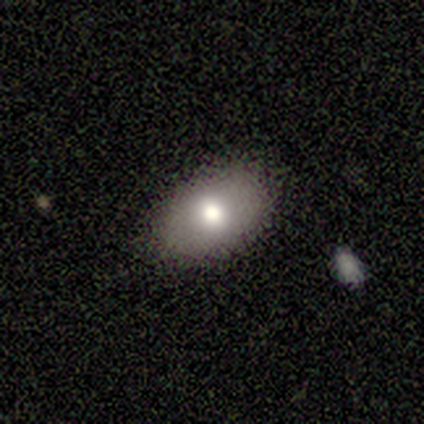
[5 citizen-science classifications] Morphology: type=smooth (60%); roundness=in between (100%); merging=none (80%).